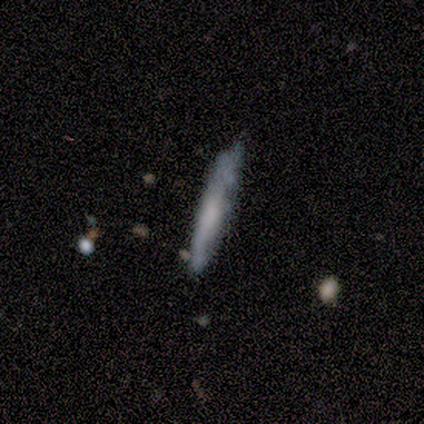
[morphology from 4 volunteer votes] Overall: smooth (50%, tied with featured or disk). How rounded: cigar-shaped (100%). Merging: none (75%).